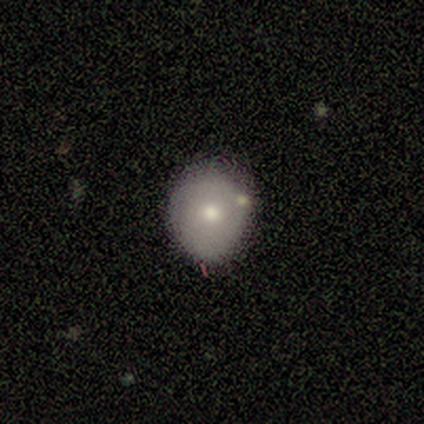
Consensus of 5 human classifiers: Volunteers were most divided on "how rounded": round: 67%, in between: 33%, cigar-shaped: 0%. More confident: merging — none (75%); smooth or featured — smooth (60%).